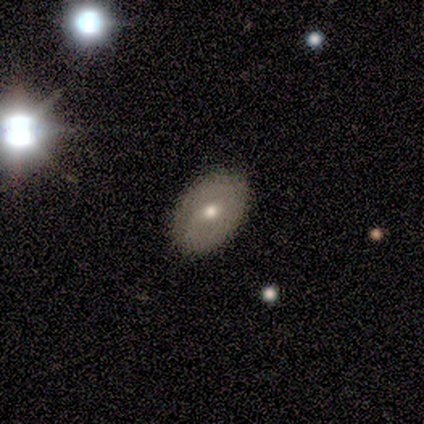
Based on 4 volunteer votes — Volunteers were most divided on "smooth or featured": smooth: 50%, featured or disk: 25%, star or artifact: 25%. More confident: how rounded — in between (100%); merging — none (100%).